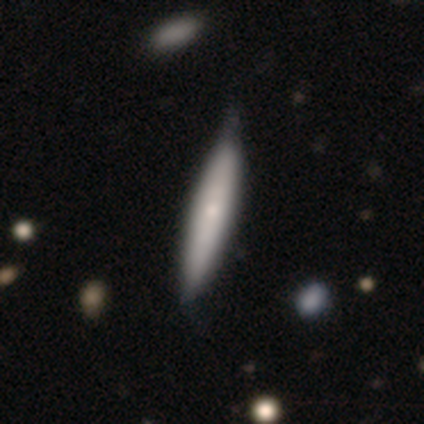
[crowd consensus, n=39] Q: Smooth or featured?
A: smooth (56%); runner-up: featured or disk (41%)
Q: How rounded?
A: cigar-shaped (86%); runner-up: in between (14%)
Q: Merging?
A: none (47%); runner-up: minor disturbance (16%)